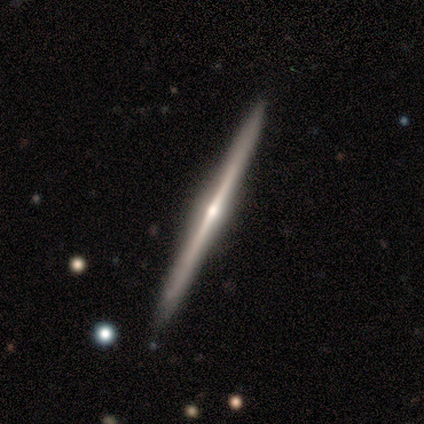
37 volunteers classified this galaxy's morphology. Smooth or featured? featured or disk (92%)
Edge-on disk? yes (100%)
Edge-on bulge? rounded (82%)
Merging? none (89%)